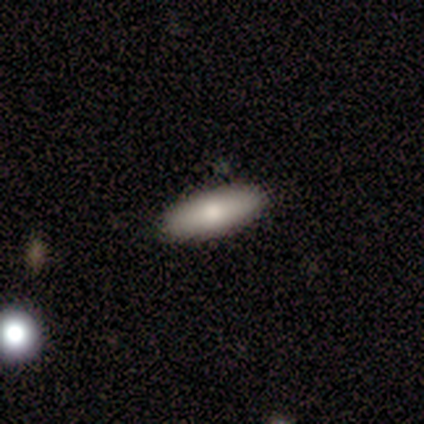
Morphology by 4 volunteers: Smooth or featured?
  - smooth: 100% *
  - featured or disk: 0%
  - star or artifact: 0%
How rounded?
  - in between: 75% *
  - cigar-shaped: 25%
  - round: 0%
Merging?
  - none: 75% *
  - minor disturbance: 25%
  - major disturbance: 0%
  - merger: 0%